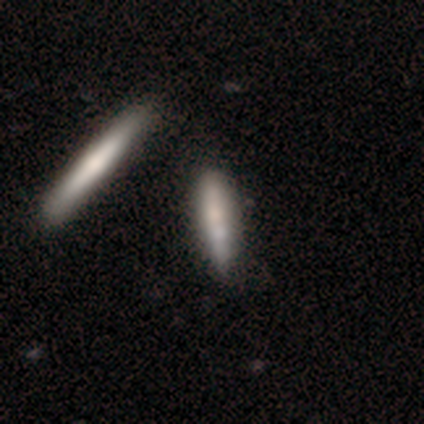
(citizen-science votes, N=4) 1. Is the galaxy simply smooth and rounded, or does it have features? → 100% smooth, 0% featured or disk, 0% star or artifact.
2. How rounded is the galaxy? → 100% cigar-shaped, 0% round, 0% in between.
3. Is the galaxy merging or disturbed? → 50% none, 25% minor disturbance, 25% merger, 0% major disturbance.